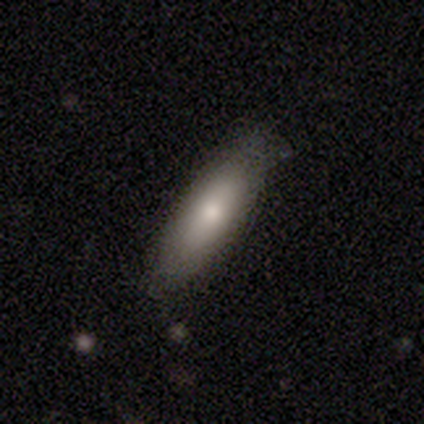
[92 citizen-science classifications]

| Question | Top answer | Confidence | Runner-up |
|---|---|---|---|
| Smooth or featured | smooth | 78% | featured or disk (16%) |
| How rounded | cigar-shaped | 51% | in between (49%) |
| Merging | none | 74% | minor disturbance (22%) |